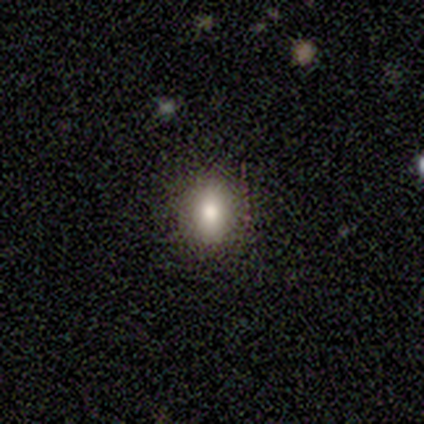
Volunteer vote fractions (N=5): Smooth or featured? smooth (100%)
How rounded? in between (60%)
Merging? none (100%)